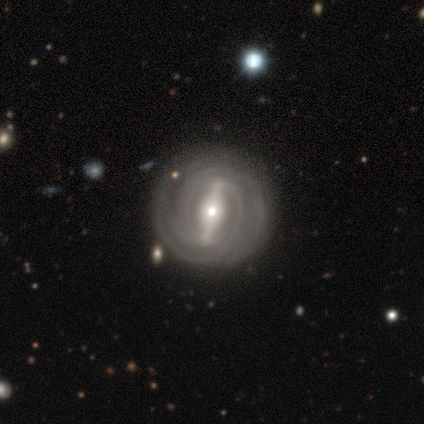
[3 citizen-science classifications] This is clearly a featured or disk galaxy (100%). It is clearly not viewed edge-on (100%). Bar: likely strong (67%). Spiral arm pattern: clearly yes (100%). Spiral arm count: marginally 3 (33%, tied with 4 and can't tell). Spiral winding: likely tight (67%). Central bulge: likely small (67%). Merging: clearly none (100%).